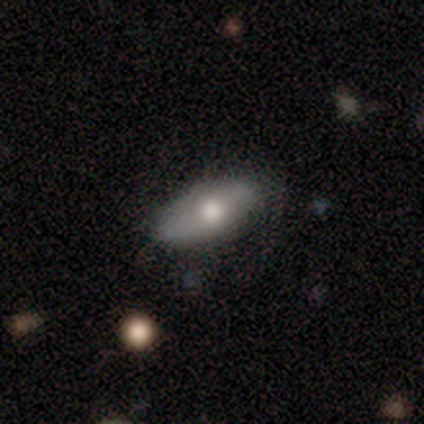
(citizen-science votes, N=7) A smooth galaxy with no disk features (57%) that is in between round and cigar-shaped (100%). Merging: none (71%).